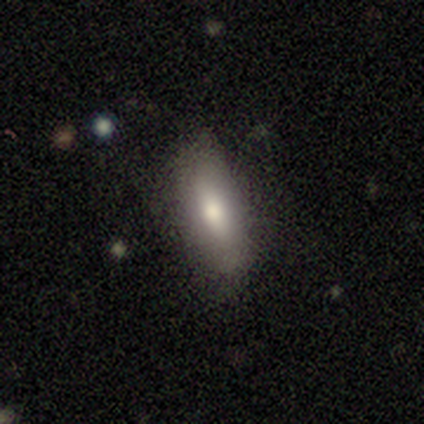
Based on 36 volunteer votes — smooth 69%, featured or disk 22%, star or artifact 8%. Down the decision tree: how rounded — in between (68%); merging — none (64%).